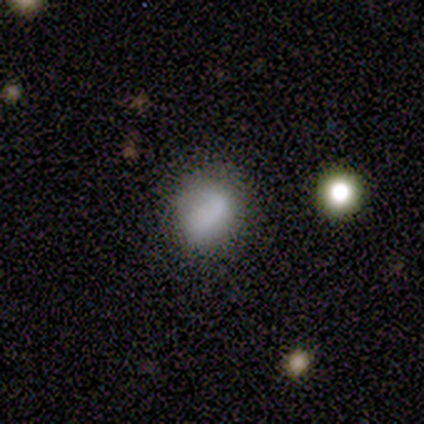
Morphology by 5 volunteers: smooth 100%, featured or disk 0%, star or artifact 0%. Down the decision tree: how rounded — round (80%); merging — none (60%).